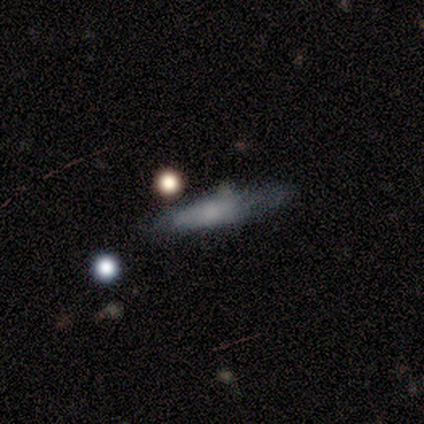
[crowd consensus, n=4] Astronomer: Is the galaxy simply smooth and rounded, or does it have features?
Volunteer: smooth — 50%, tied with featured or disk at 50%.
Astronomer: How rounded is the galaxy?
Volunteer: round — 50%, tied with cigar-shaped at 50%.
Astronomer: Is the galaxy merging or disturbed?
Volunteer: none — 50%, tied with minor disturbance at 50%.